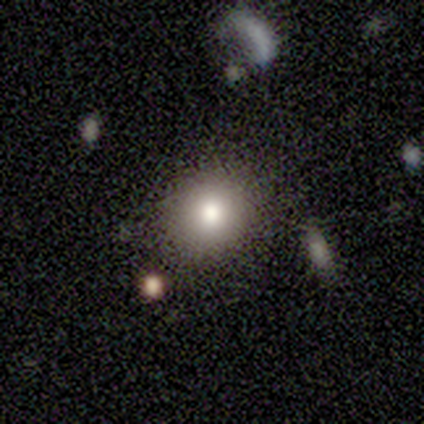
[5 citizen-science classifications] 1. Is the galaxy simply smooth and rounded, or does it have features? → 80% smooth, 20% featured or disk, 0% star or artifact.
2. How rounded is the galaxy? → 75% round, 25% in between, 0% cigar-shaped.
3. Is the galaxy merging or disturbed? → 100% none, 0% minor disturbance, 0% major disturbance, 0% merger.